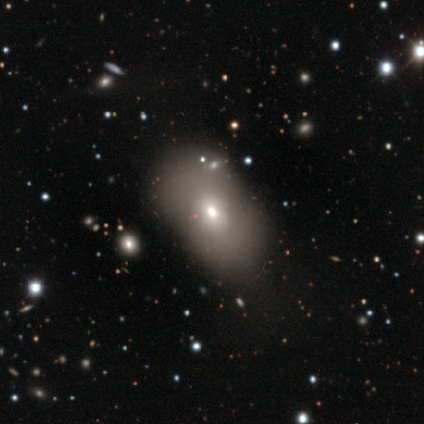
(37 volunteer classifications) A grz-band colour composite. It shows a smooth galaxy with no disk features (73%) that is in between round and cigar-shaped (93%). Merging: none (47%).